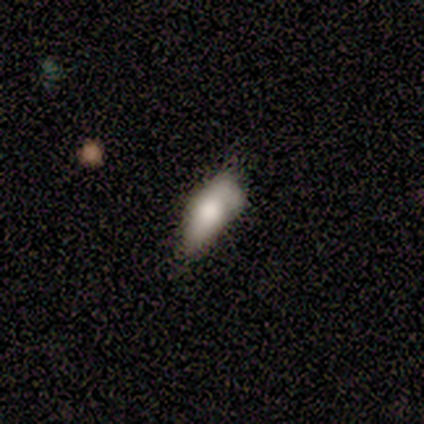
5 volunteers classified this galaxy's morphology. Smooth or featured? smooth (80%)
How rounded? in between (100%)
Merging? none (60%)